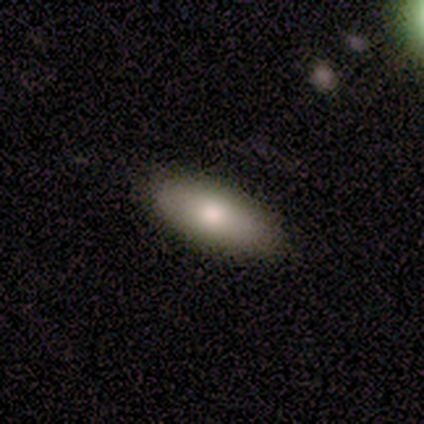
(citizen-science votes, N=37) This appears to be a smooth galaxy with no disk features (81%) that is in between round and cigar-shaped (90%). Merging: none (91%).